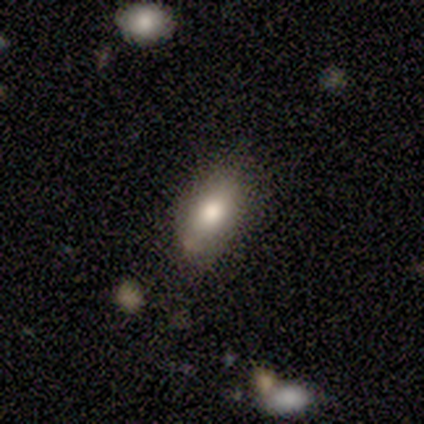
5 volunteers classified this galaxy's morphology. A smooth galaxy with no disk features (80%) that is in between round and cigar-shaped (100%). Merging: none (50%, tied with minor disturbance).